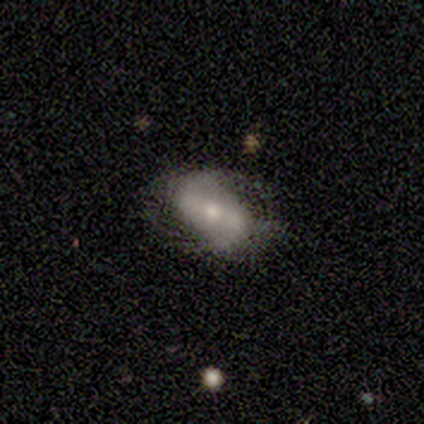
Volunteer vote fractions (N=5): Smooth or featured? 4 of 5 (80%) said featured or disk. Edge-on disk? 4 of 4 (100%) said no. Bar? 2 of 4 (50%) said no. Spiral arms? 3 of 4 (75%) said yes. Spiral winding? 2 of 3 (67%) said loose. Spiral arm count? 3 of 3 (100%) said 2. Bulge size? 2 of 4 (50%, tied with small) said moderate. Merging? 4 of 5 (80%) said none.